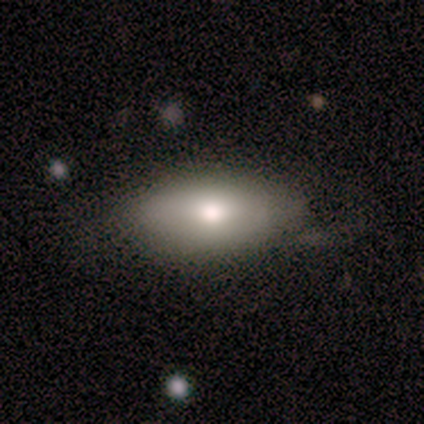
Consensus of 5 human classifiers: Smooth or featured? smooth (60%)
How rounded? in between (100%)
Merging? none (80%)